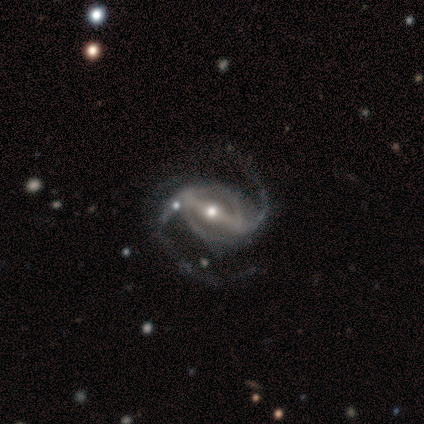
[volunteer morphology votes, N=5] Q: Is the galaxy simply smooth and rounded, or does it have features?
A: featured or disk — 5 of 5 (100%).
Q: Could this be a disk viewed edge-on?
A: no — 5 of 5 (100%).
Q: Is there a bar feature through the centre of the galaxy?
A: strong — 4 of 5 (80%).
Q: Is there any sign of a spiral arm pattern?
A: yes — 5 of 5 (100%).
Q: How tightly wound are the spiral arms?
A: loose — 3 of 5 (60%).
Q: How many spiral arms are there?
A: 2 — 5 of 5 (100%).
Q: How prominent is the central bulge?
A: moderate — 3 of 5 (60%).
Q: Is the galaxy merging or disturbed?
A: none — 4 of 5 (80%).